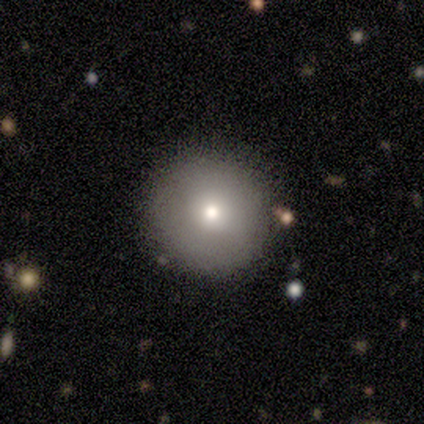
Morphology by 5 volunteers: Overall: smooth (100%). How rounded: round (100%). Merging: none (80%).